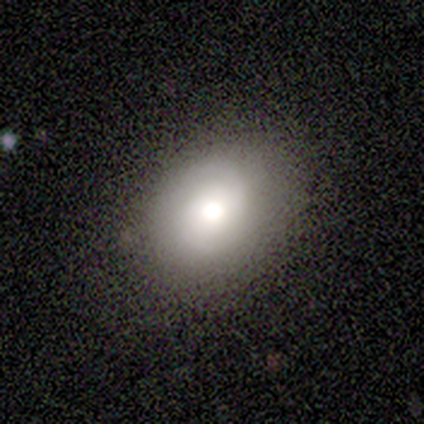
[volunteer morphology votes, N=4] Smooth or featured? smooth (75%)
How rounded? in between (100%)
Merging? none (100%)